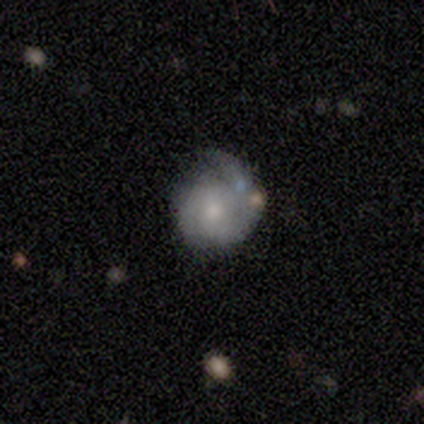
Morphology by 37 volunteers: This appears to be a featured or disk galaxy (73%) with no bar (81%), 1 (35%, tied with can't tell) tight (42%) spiral arms (96%) and a moderate central bulge (48%, tied with small). Merging: none (61%).